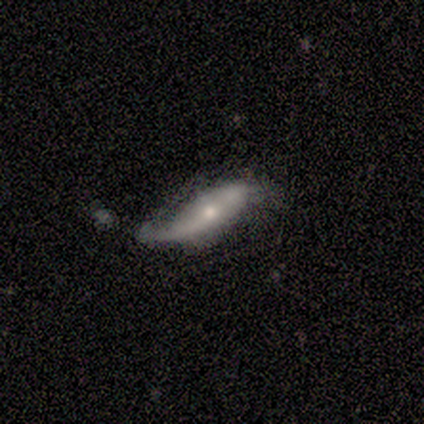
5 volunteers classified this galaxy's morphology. Smooth or featured? featured or disk (80%)
Edge-on disk? yes (50%, tied with no)
Edge-on bulge? none (100%)
Merging? none (50%)